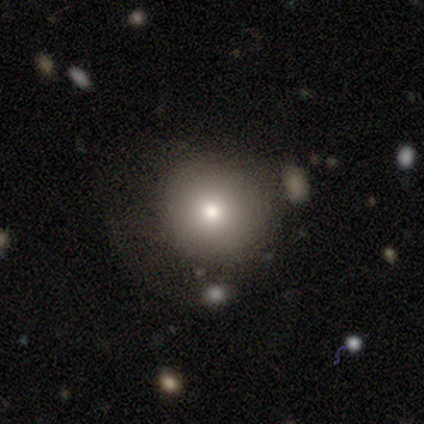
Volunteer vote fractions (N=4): Q: Smooth or featured?
A: smooth (75%); runner-up: featured or disk (25%)
Q: How rounded?
A: round (100%)
Q: Merging?
A: none (50%); runner-up: minor disturbance (25%)